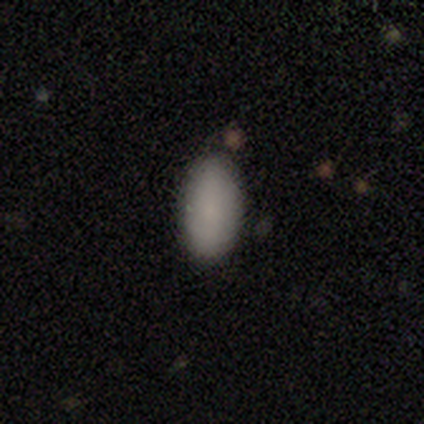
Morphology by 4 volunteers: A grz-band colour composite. It shows a smooth galaxy with no disk features (100%) that is in between round and cigar-shaped (100%). Merging: none (100%).